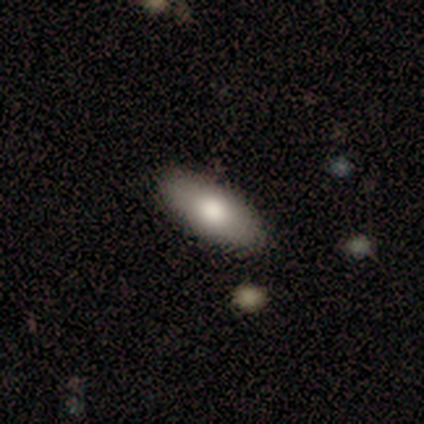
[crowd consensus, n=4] This appears to be a smooth galaxy with no disk features (100%) that is cigar-shaped (50%). Merging: none (75%).